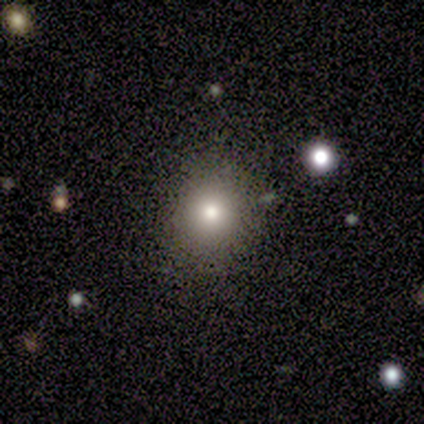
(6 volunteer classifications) smooth 67%, featured or disk 17%, star or artifact 17%. Down the decision tree: how rounded — round (100%); merging — none (80%).